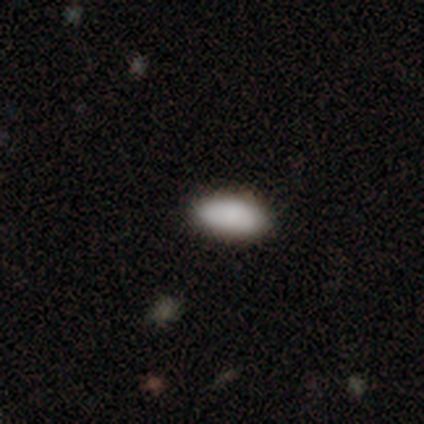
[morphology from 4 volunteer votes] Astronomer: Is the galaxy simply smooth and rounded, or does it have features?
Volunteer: smooth — 100%.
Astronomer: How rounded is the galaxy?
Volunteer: in between — 100%.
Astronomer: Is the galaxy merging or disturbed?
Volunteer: none — 100%.